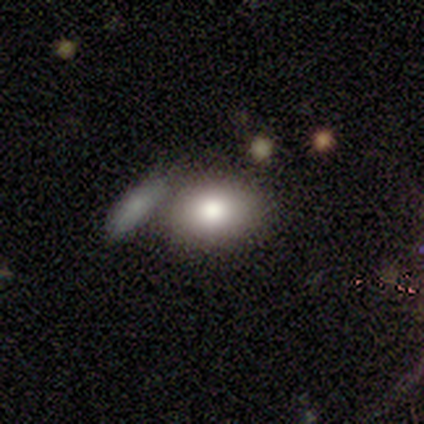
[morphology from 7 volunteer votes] Overall: smooth (100%). How rounded: in between (71%). Merging: merger (57%; none 43%).